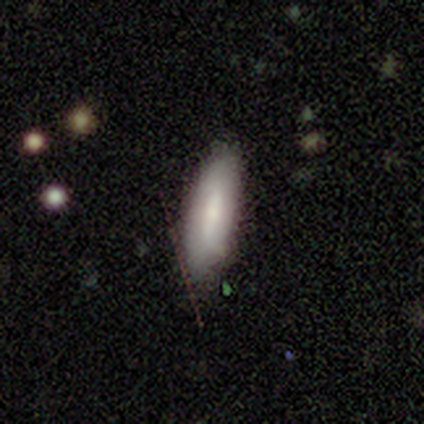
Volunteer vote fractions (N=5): This is likely a smooth galaxy (60%). How rounded: likely cigar-shaped (67%). Merging: clearly none (100%).